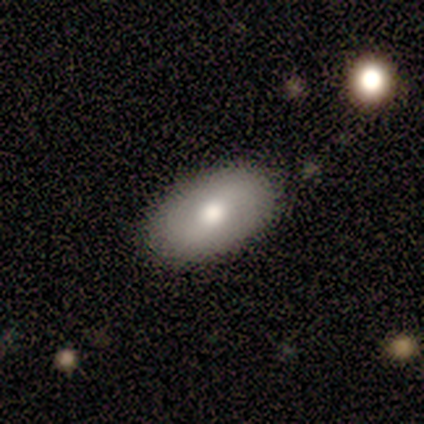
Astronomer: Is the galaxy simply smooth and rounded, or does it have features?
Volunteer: smooth — 75%.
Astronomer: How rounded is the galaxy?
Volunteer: in between — 100%.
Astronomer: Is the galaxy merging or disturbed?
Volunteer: minor disturbance — 67%.